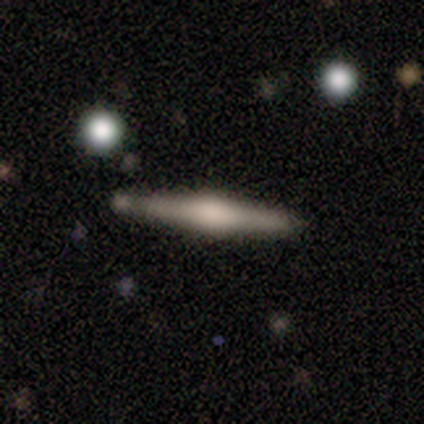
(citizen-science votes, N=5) Smooth or featured? featured or disk (80%)
Edge-on disk? yes (100%)
Edge-on bulge? rounded (75%)
Merging? none (100%)